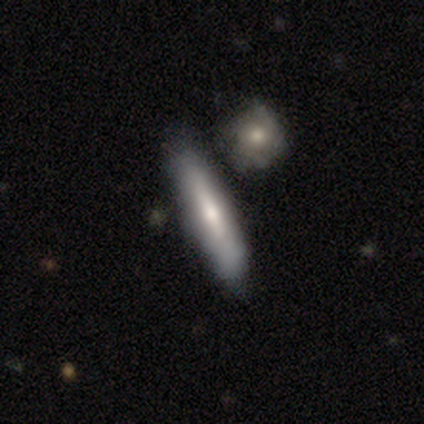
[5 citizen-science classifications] This appears to be a featured or disk galaxy (60%) with no bar (100%), tight (100%) spiral arms (50%, tied with no) and a large central bulge (50%, tied with moderate). Merging: none (40%, tied with merger).